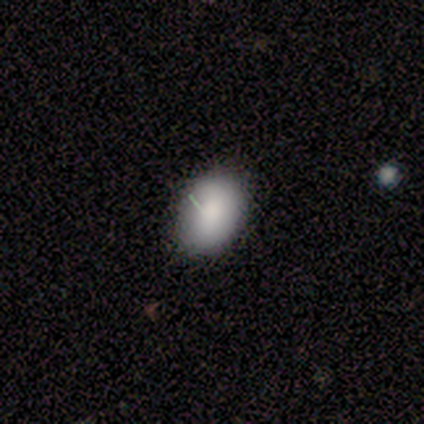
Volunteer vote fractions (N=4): Smooth or featured: smooth — 75% (star or artifact — 25%)
How rounded: in between — 100%
Merging: minor disturbance — 67% (none — 33%)